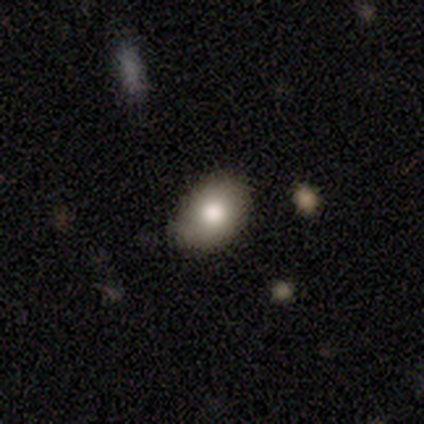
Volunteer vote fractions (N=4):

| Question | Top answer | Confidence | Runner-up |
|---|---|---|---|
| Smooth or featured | smooth | 75% | star or artifact (25%) |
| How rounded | in between | 67% | round (33%) |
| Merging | minor disturbance | 67% | none (33%) |